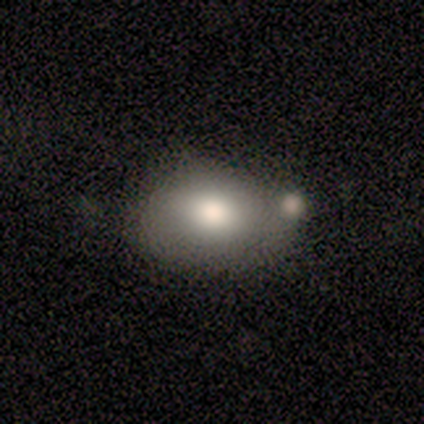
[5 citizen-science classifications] Smooth or featured: smooth — 60% (featured or disk — 40%)
How rounded: in between — 67% (round — 33%)
Merging: none — 40% (tied with merger — 40%)